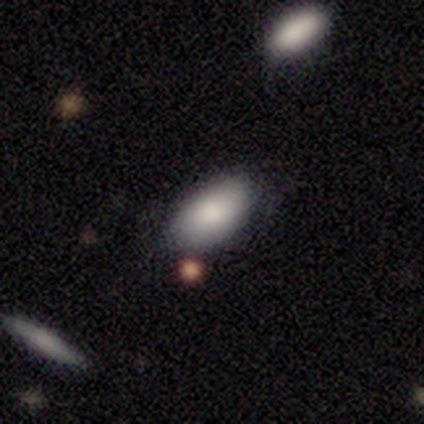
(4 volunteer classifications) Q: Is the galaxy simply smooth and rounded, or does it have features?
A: smooth — 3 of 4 (75%).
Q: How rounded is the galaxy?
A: in between — 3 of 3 (100%).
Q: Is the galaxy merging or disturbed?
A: none — 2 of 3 (67%).